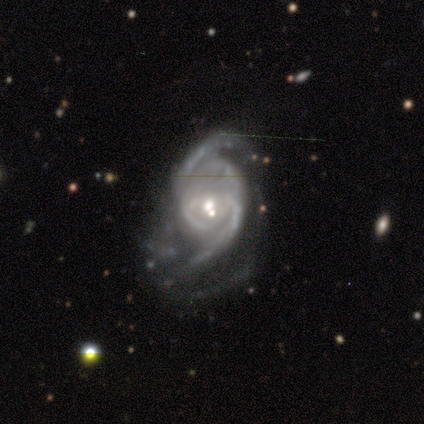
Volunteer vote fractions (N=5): Smooth or featured? featured or disk (80%)
Edge-on disk? no (100%)
Bar? no (75%)
Spiral arms? yes (100%)
Spiral winding? medium (75%)
Spiral arm count? 2 (100%)
Bulge size? small (75%)
Merging? major disturbance (75%)